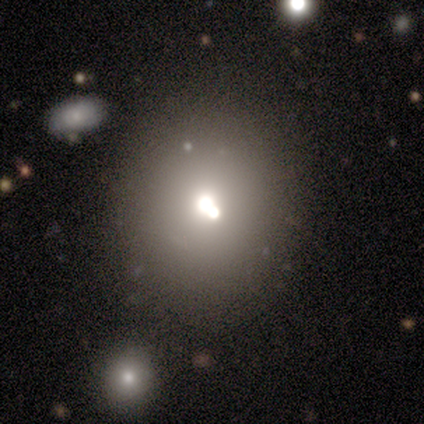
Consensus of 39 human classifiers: Smooth or featured? 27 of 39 (69%) said smooth. How rounded? 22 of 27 (81%) said round. Merging? 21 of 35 (60%) said none.